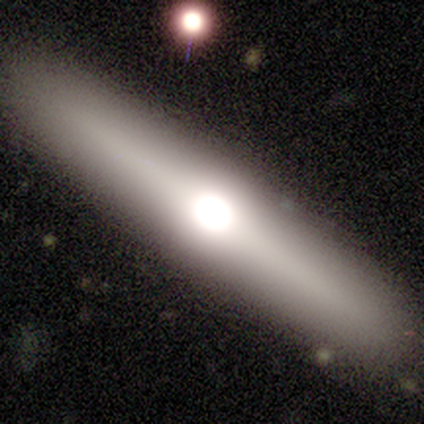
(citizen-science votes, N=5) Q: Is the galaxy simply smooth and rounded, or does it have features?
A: featured or disk — 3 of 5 (60%).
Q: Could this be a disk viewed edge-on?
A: yes — 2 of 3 (67%).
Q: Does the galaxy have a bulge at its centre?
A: rounded — 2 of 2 (100%).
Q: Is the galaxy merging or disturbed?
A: none — 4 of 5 (80%).